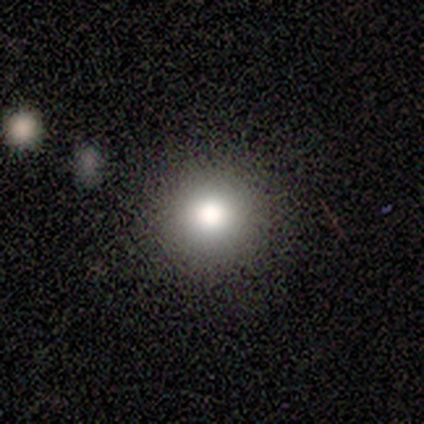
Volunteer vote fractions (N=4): Smooth or featured: smooth — 100%
How rounded: round — 100%
Merging: none — 100%